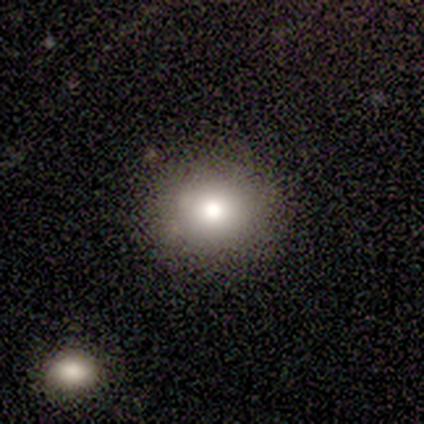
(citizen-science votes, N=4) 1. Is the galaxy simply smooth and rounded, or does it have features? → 75% smooth, 25% star or artifact, 0% featured or disk.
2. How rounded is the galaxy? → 67% round, 33% in between, 0% cigar-shaped.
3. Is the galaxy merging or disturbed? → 100% none, 0% minor disturbance, 0% major disturbance, 0% merger.